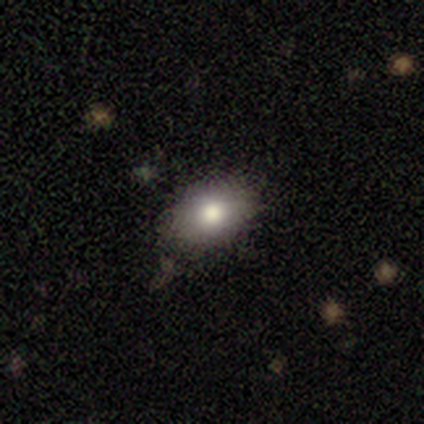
This appears to be a smooth galaxy with no disk features (88%) that is in between round and cigar-shaped (83%). Merging: none (84%).